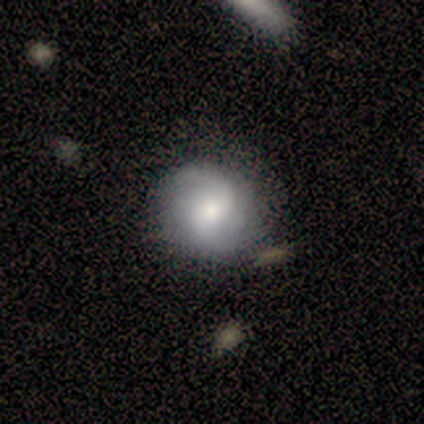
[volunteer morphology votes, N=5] smooth_or_featured: featured or disk (p=0.80) [alt: smooth p=0.20]
disk_edge_on: no (p=1.00)
bar: weak (p=0.50) [alt: strong p=0.25]
has_spiral_arms: yes (p=1.00)
spiral_winding: loose (p=0.50) [alt: tight p=0.25]
spiral_arm_count: 2 (p=1.00)
bulge_size: moderate (p=0.75) [alt: small p=0.25]
merging: none (p=0.60) [alt: minor disturbance p=0.20]